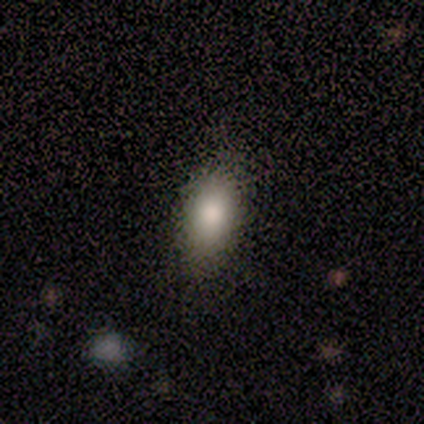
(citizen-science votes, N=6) Morphology: type=smooth (100%); roundness=in between (100%); merging=none (100%).